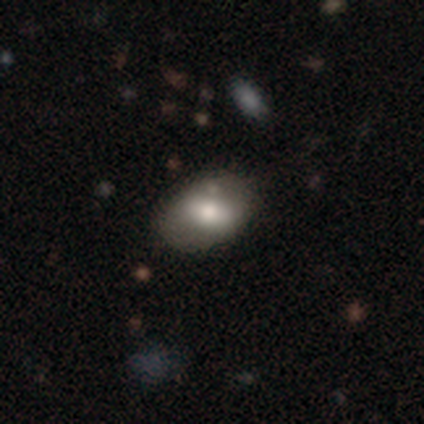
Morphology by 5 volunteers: Smooth or featured?
  - smooth: 80% *
  - featured or disk: 20%
  - star or artifact: 0%
How rounded?
  - in between: 100% *
  - round: 0%
  - cigar-shaped: 0%
Merging?
  - none: 80% *
  - major disturbance: 20%
  - minor disturbance: 0%
  - merger: 0%